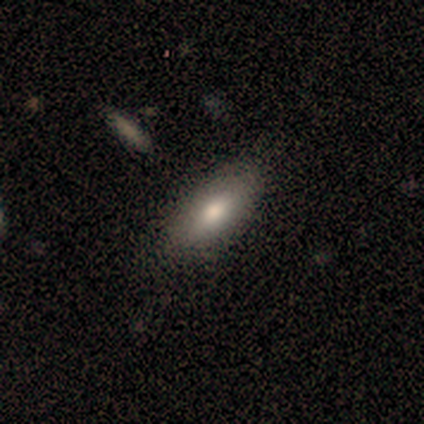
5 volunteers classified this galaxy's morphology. A smooth galaxy with no disk features (80%) that is in between round and cigar-shaped (50%, tied with cigar-shaped). Merging: none (80%).